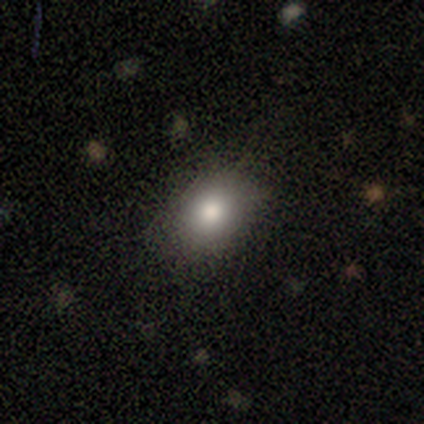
Smooth or featured: smooth — 86% (star or artifact — 14%)
How rounded: in between — 100%
Merging: none — 100%